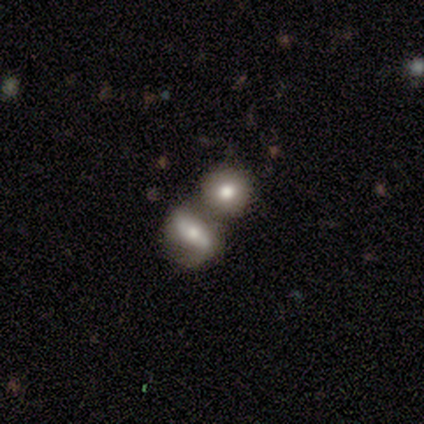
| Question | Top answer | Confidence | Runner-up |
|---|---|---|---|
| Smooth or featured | smooth | 50% | featured or disk (40%) |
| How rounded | round | 55% | in between (40%) |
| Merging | merger | 69% | none (19%) |